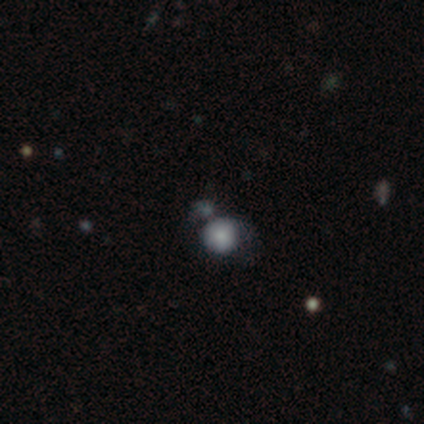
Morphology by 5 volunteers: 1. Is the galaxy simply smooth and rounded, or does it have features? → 80% smooth, 20% star or artifact, 0% featured or disk.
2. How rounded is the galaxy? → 75% round, 25% in between, 0% cigar-shaped.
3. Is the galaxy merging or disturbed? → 75% merger, 25% none, 0% minor disturbance, 0% major disturbance.